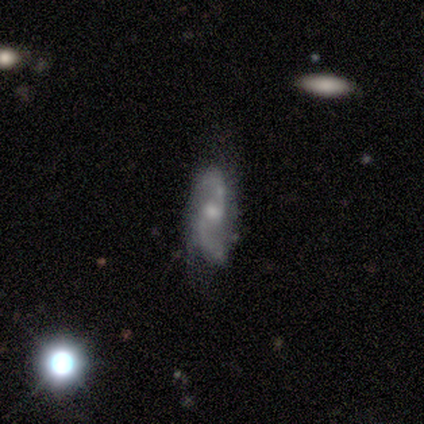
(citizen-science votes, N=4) Overall: featured or disk (75%). Edge-on disk: no (100%). Bar: no (67%; weak 33%). Spiral arms: yes (100%). Spiral arm count: 2 (100%). Spiral winding: loose (100%). Bulge size: moderate (67%; small 33%). Merging: none (100%).